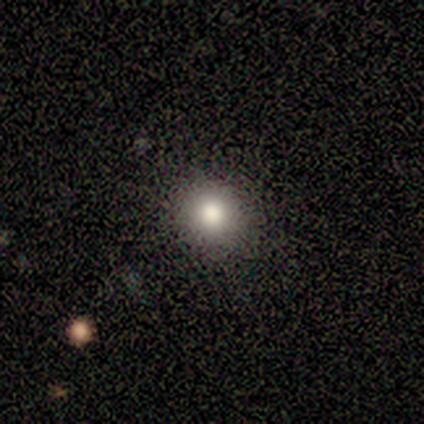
smooth-or-featured: smooth: 60% | star or artifact: 30% | featured or disk: 10%
  how-rounded: round: 83% | in between: 17% | cigar-shaped: 0%
  merging: none: 86% | minor disturbance: 14% | major disturbance: 0% | merger: 0%